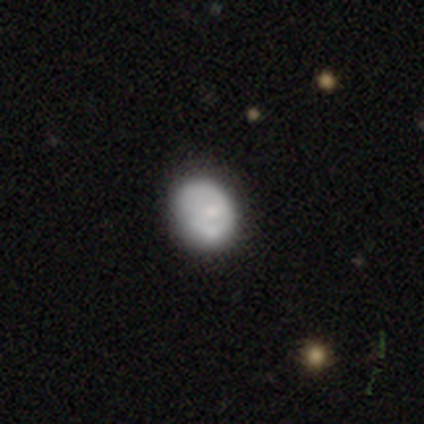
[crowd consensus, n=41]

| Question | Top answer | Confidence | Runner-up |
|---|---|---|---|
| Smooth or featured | smooth | 63% | featured or disk (37%) |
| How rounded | in between | 65% | round (35%) |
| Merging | none | 41% | minor disturbance (12%) |